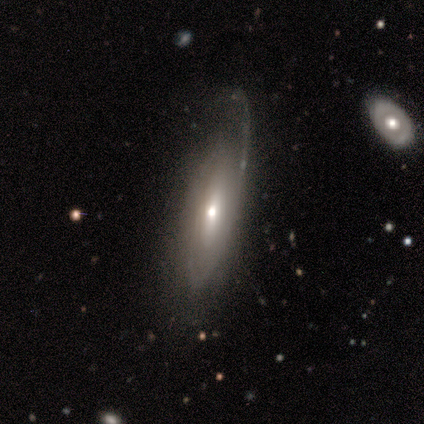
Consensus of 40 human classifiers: This is likely a featured or disk galaxy (70%). It is likely not viewed edge-on (71%). Bar: likely no (70%). Spiral arm pattern: clearly yes (80%). Spiral arm count: possibly can't tell (56%). Spiral winding: likely medium (62%). Central bulge: likely moderate (60%). Merging: likely none (65%).